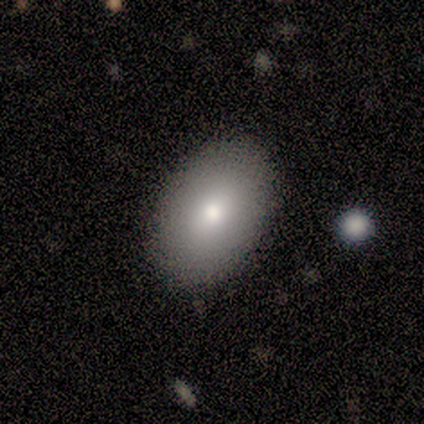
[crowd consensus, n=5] Q: Smooth or featured?
A: featured or disk (60%); runner-up: smooth (40%)
Q: Edge-on disk?
A: no (100%)
Q: Bar?
A: no (67%); runner-up: weak (33%)
Q: Spiral arms?
A: no (100%)
Q: Bulge size?
A: moderate (100%)
Q: Merging?
A: none (100%)